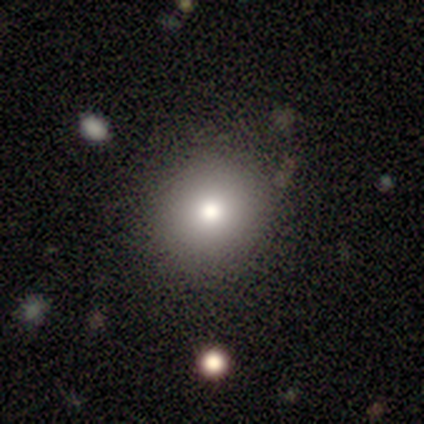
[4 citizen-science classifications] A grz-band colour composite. It shows a smooth galaxy with no disk features (75%) that is round (100%). Merging: none (100%).